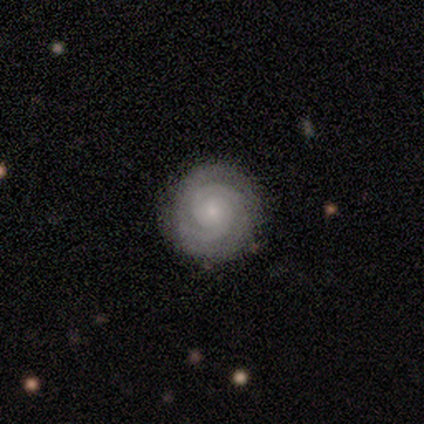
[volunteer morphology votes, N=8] A featured or disk galaxy (88%) with no bar (86%), 2 (43%) tight (86%) spiral arms (100%) and a small central bulge (71%). Merging: none (88%).